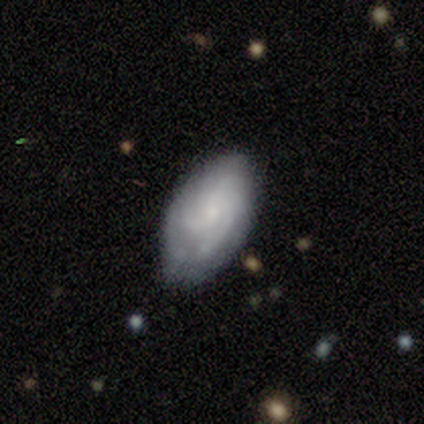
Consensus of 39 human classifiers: A featured or disk galaxy (67%) with no bar (83%), 3 (50%) tight (65%) spiral arms (87%) and a small central bulge (65%).

Vote fractions:
- Smooth or featured? featured or disk: 67% / smooth: 28% / star or artifact: 5%
- Edge-on disk? no: 88% / yes: 12%
- Bar? no: 83% / weak: 17% / strong: 0%
- Spiral arms? yes: 87% / no: 13%
- Spiral winding? tight: 65% / medium: 30% / loose: 5%
- Spiral arm count? 3: 50% / can't tell: 25% / 2: 20% / 4: 5% / 1: 0% / more than 4: 0%
- Bulge size? small: 65% / none: 22% / moderate: 13% / dominant: 0% / large: 0%
- Merging? none: 73% / minor disturbance: 24% / merger: 3% / major disturbance: 0%